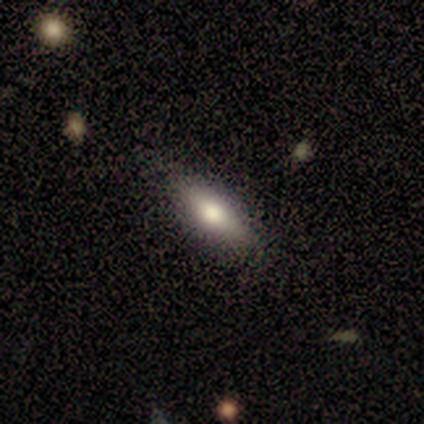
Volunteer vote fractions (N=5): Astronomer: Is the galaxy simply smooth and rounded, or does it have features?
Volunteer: smooth — 60% (runner-up: featured or disk, 40%).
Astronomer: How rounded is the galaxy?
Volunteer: in between — 67%.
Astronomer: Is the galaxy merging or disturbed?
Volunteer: none — 100%.